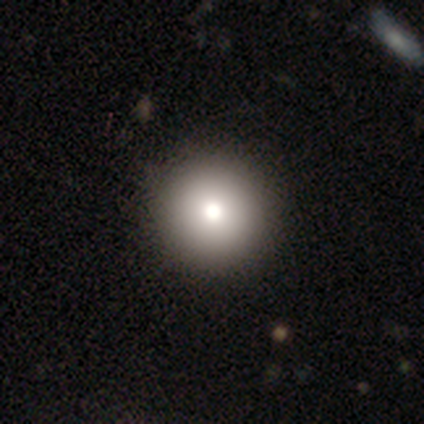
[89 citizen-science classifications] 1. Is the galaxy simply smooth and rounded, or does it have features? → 75% smooth, 13% star or artifact, 11% featured or disk.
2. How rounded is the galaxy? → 97% round, 3% in between, 0% cigar-shaped.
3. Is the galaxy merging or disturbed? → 91% none, 5% minor disturbance, 3% major disturbance, 1% merger.